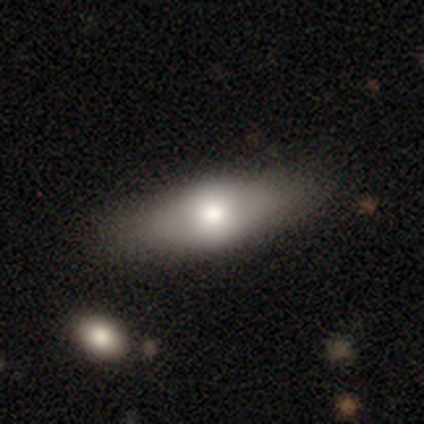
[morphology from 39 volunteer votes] Q: Smooth or featured?
A: smooth (77%); runner-up: featured or disk (21%)
Q: How rounded?
A: in between (63%); runner-up: cigar-shaped (33%)
Q: Merging?
A: none (61%); runner-up: minor disturbance (8%)